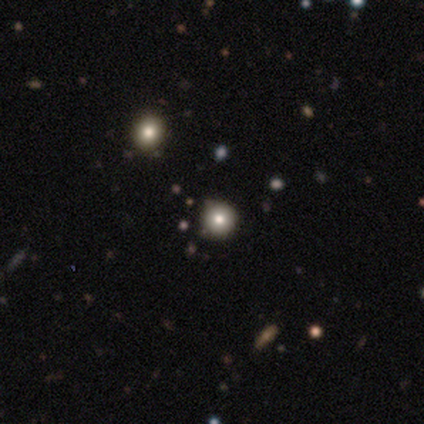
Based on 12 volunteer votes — smooth-or-featured: smooth: 75% | star or artifact: 25% | featured or disk: 0%
  how-rounded: round: 100% | in between: 0% | cigar-shaped: 0%
  merging: none: 89% | minor disturbance: 11% | major disturbance: 0% | merger: 0%